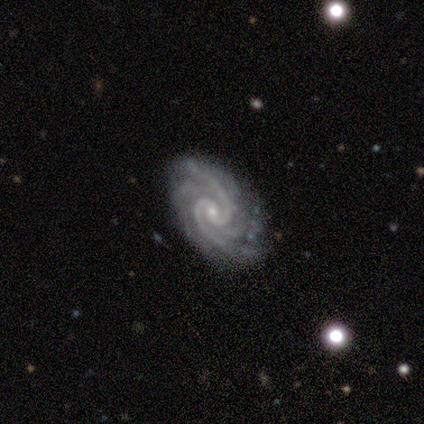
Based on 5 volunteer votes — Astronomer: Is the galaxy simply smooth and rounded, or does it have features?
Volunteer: featured or disk — 100%.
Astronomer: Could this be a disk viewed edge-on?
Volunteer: no — 100%.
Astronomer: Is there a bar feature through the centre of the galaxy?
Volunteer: weak — 40%, tied with no at 40%.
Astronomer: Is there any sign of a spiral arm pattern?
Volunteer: yes — 100%.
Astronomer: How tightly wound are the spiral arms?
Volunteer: tight — 100%.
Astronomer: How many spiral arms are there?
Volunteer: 2 — 60%.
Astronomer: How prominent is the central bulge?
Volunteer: small — 100%.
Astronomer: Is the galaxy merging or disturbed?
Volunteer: none — 100%.